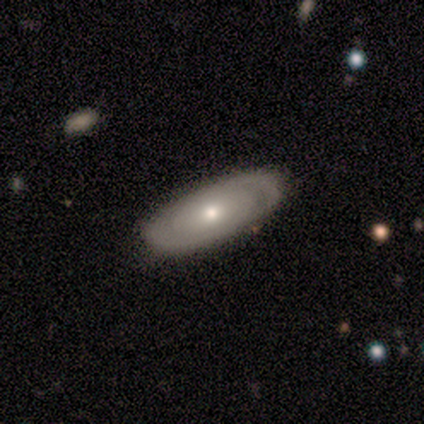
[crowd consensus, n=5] Smooth or featured? 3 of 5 (60%) said featured or disk. Edge-on disk? 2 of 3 (67%) said no. Bar? 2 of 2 (100%) said no. Spiral arms? 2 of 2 (100%) said no. Bulge size? 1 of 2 (50%, tied with small) said moderate. Merging? 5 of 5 (100%) said none.